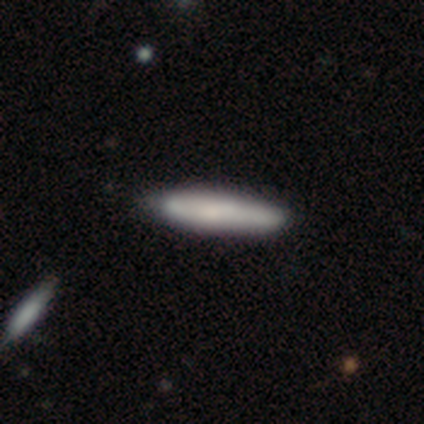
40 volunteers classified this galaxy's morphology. Smooth or featured: smooth — 70% (featured or disk — 30%)
How rounded: cigar-shaped — 96% (in between — 4%)
Merging: none — 70% (minor disturbance — 10%)